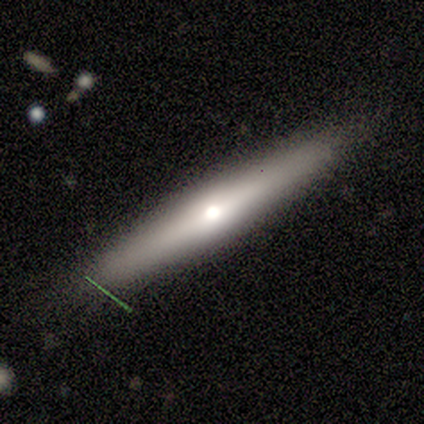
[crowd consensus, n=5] Smooth or featured? featured or disk (60%)
Edge-on disk? yes (67%)
Edge-on bulge? rounded (100%)
Merging? none (100%)